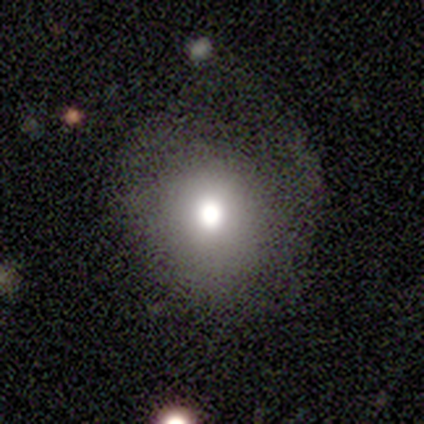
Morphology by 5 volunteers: Smooth or featured: smooth — 80% (featured or disk — 20%)
How rounded: round — 100%
Merging: none — 60% (minor disturbance — 40%)